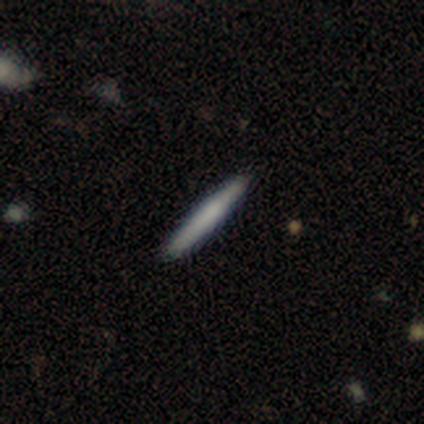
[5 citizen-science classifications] This is clearly a smooth galaxy (100%). How rounded: clearly cigar-shaped (100%). Merging: clearly none (100%).